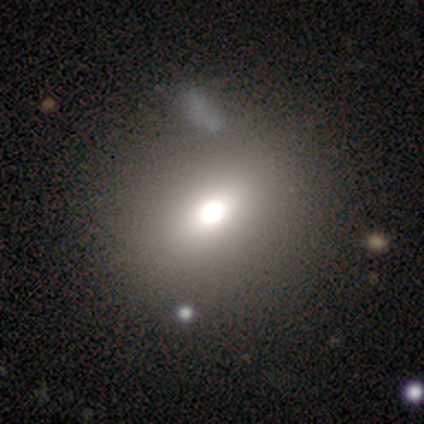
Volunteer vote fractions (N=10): Smooth or featured: smooth — 90% (star or artifact — 10%)
How rounded: round — 78% (in between — 22%)
Merging: none — 78% (major disturbance — 11%)